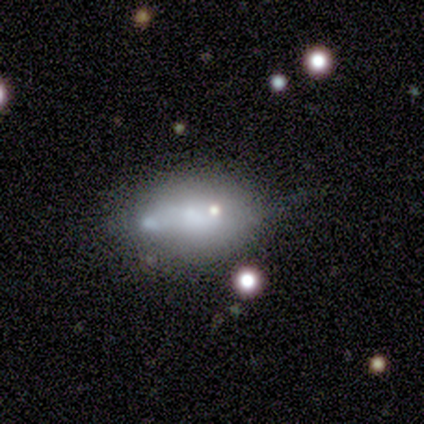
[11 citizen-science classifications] A featured or disk galaxy (45%) with no bar (80%), no spiral arms (100%) and no central bulge (40%). Merging: minor disturbance (44%).